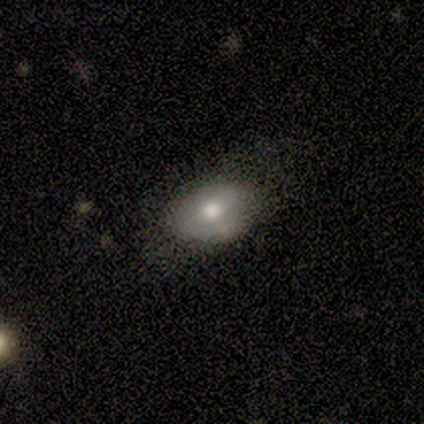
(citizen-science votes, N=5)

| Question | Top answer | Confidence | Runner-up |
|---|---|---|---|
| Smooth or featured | smooth | 60% | featured or disk (20%) |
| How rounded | in between | 67% | round (33%) |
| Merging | none | 75% | major disturbance (25%) |